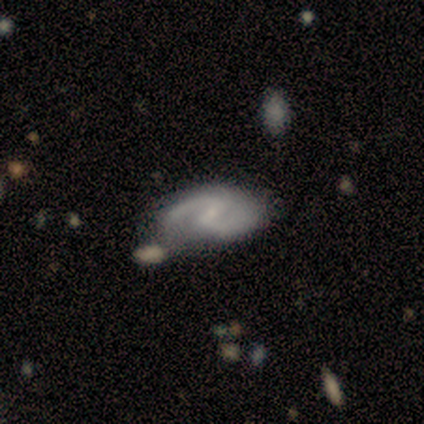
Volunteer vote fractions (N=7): Overall: featured or disk (100%). Edge-on disk: no (100%). Bar: no (57%; weak 43%). Spiral arms: yes (86%). Spiral arm count: 2 (100%). Spiral winding: medium (67%; tight 33%). Bulge size: small (71%). Merging: none (86%).